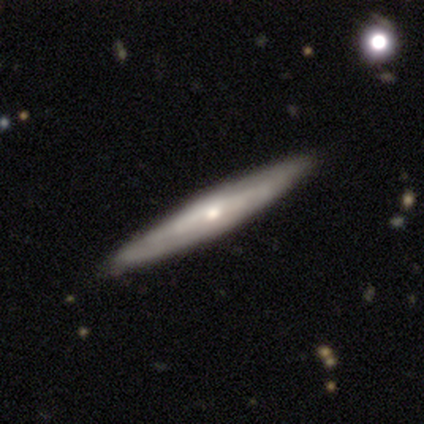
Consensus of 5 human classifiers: Smooth or featured? 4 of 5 (80%) said featured or disk. Edge-on disk? 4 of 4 (100%) said yes. Edge-on bulge? 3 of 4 (75%) said rounded. Merging? 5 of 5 (100%) said none.